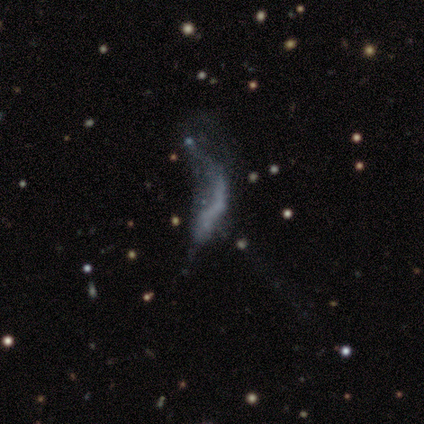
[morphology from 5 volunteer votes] Q: Smooth or featured?
A: featured or disk (60%); runner-up: smooth (20%)
Q: Edge-on disk?
A: no (100%)
Q: Bar?
A: no (67%); runner-up: weak (33%)
Q: Spiral arms?
A: yes (67%); runner-up: no (33%)
Q: Spiral winding?
A: loose (100%)
Q: Spiral arm count?
A: 1 (50%); tied with: 2 (50%)
Q: Bulge size?
A: none (67%); runner-up: dominant (33%)
Q: Merging?
A: merger (50%); runner-up: none (25%)